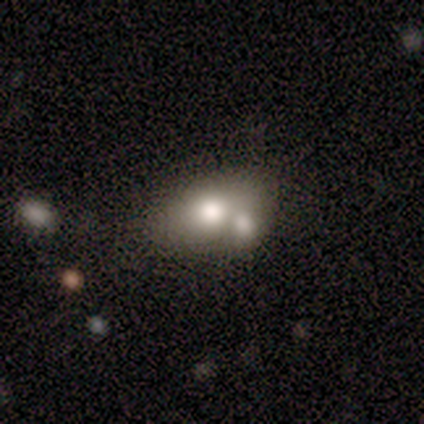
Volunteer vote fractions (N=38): smooth-or-featured: smooth: 61% | featured or disk: 32% | star or artifact: 8%
  how-rounded: in between: 83% | round: 17% | cigar-shaped: 0%
  merging: merger: 46% | none: 37% | minor disturbance: 17% | major disturbance: 0%